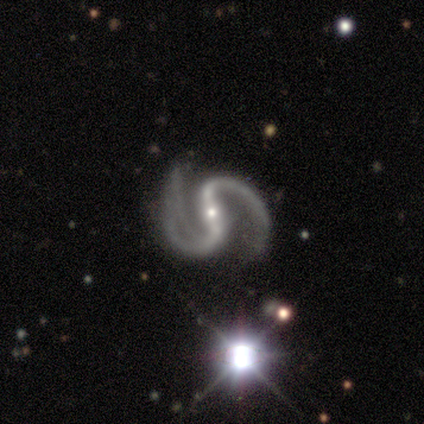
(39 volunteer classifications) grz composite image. It shows a featured or disk galaxy (100%) with a strong bar (76%), 2 (92%) medium (68%) spiral arms (100%) and a small central bulge (76%). Merging: none (56%).